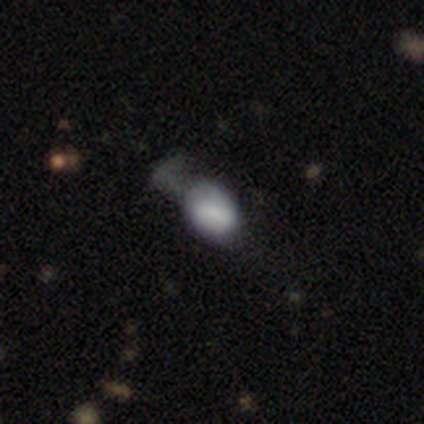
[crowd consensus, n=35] smooth-or-featured: smooth: 80% | featured or disk: 17% | star or artifact: 3%
  how-rounded: in between: 75% | round: 25% | cigar-shaped: 0%
  merging: minor disturbance: 44% | none: 29% | major disturbance: 21% | merger: 6%